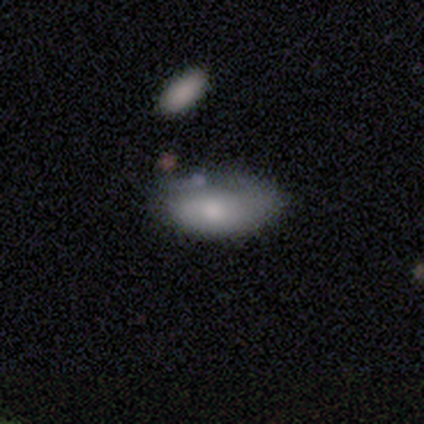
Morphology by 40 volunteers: A smooth galaxy with no disk features (75%) that is in between round and cigar-shaped (90%).

Vote fractions:
- Smooth or featured? smooth: 75% / featured or disk: 18% / star or artifact: 8%
- How rounded? in between: 90% / cigar-shaped: 7% / round: 3%
- Merging? minor disturbance: 41% / none: 32% / merger: 8% / major disturbance: 5%